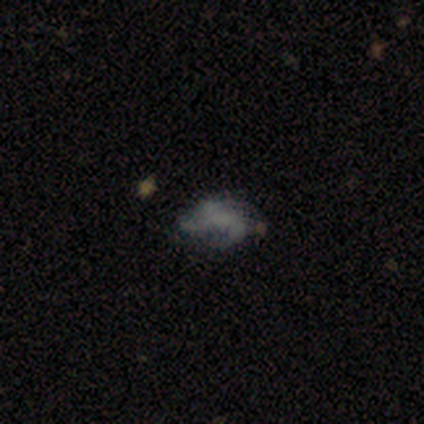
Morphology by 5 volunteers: Smooth or featured?
  - smooth: 40% * (tied)
  - featured or disk: 40% * (tied)
  - star or artifact: 20%
How rounded?
  - in between: 50% * (tied)
  - cigar-shaped: 50% * (tied)
  - round: 0%
Merging?
  - none: 25% * (tied)
  - minor disturbance: 25% * (tied)
  - major disturbance: 25% * (tied)
  - merger: 25% * (tied)